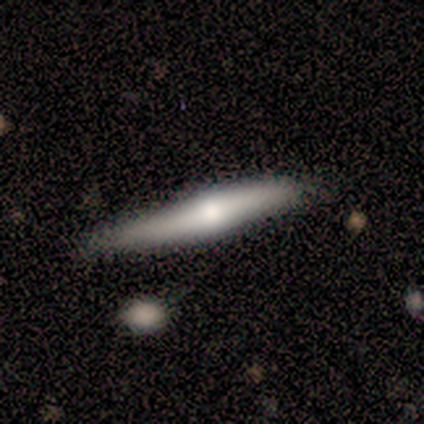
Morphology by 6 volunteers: type=featured or disk (83%); edge-on=yes (60%); edge-on bulge=rounded (100%); merging=none (50%, tied with minor disturbance).